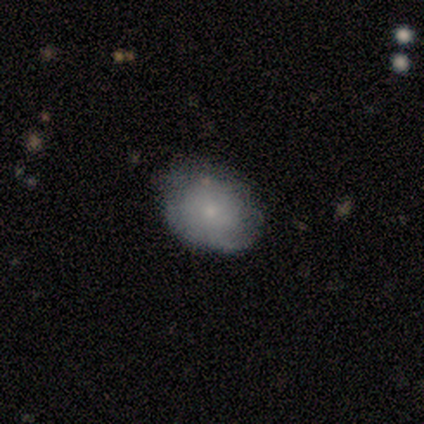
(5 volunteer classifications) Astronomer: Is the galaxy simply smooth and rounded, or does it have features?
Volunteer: featured or disk — 60% (runner-up: smooth, 40%).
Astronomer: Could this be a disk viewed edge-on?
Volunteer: no — 100%.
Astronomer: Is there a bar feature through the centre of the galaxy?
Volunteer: no — 100%.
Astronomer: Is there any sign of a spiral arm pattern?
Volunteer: no — 100%.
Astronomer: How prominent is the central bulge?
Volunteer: small — 100%.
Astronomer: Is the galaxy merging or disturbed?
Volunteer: none — 60% (runner-up: minor disturbance, 40%).